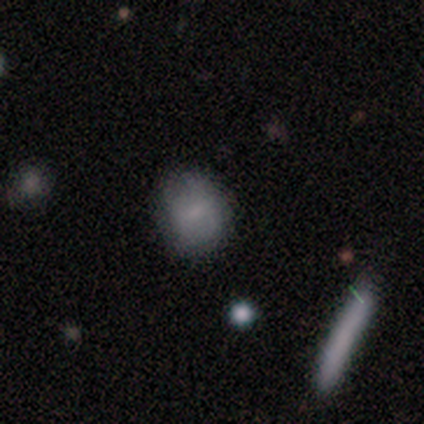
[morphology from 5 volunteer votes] smooth_or_featured: smooth (p=0.60) [alt: featured or disk p=0.40]
how_rounded: round (p=1.00)
merging: none (p=1.00)